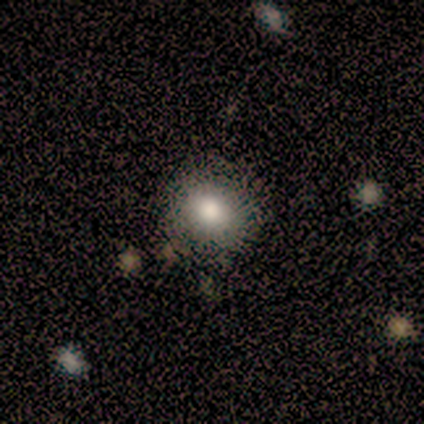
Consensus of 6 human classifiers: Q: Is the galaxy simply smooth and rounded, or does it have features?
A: smooth — 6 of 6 (100%).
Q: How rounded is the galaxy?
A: round — 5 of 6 (83%).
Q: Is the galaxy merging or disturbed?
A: none — 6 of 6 (100%).